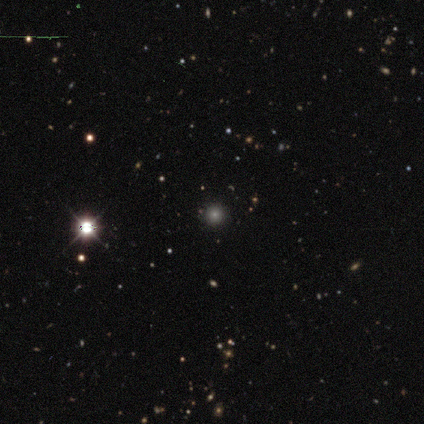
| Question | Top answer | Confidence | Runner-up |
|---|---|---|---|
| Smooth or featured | smooth | 50% | featured or disk (25%) |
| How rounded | round | 100% | — |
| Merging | none | 100% | — |